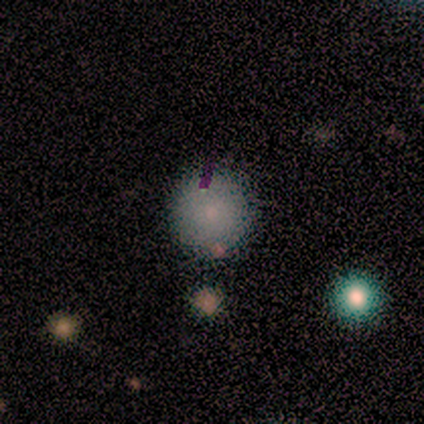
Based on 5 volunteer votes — Smooth or featured? 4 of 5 (80%) said smooth. How rounded? 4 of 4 (100%) said round. Merging? 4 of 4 (100%) said none.